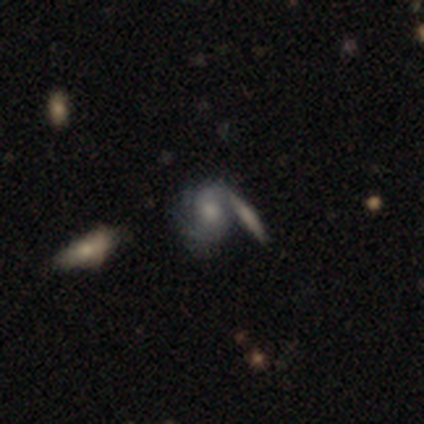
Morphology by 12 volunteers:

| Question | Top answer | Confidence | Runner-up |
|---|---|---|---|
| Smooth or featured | featured or disk | 58% | smooth (42%) |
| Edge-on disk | no | 100% | — |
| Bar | weak | 57% | no (43%) |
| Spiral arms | yes | 86% | no (14%) |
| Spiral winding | tight | 50% | medium (33%) |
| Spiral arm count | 2 | 33% | tied: can't tell (33%) |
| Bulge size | moderate | 57% | small (43%) |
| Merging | merger | 58% | none (42%) |